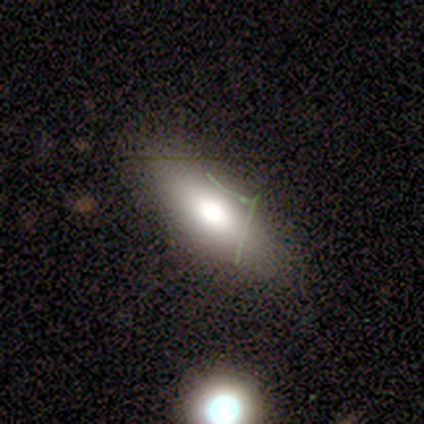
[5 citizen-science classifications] Overall: smooth (80%). How rounded: in between (50%; round 25%). Merging: none (80%).